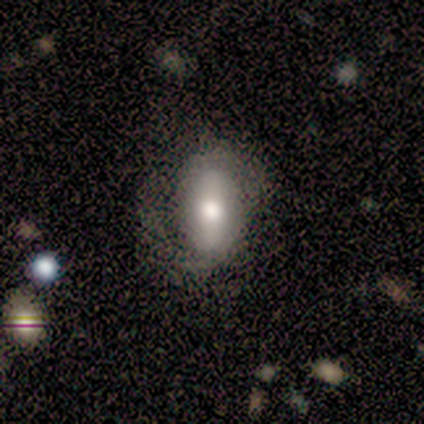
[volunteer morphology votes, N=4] A smooth galaxy with no disk features (50%, tied with featured or disk) that is in between round and cigar-shaped (100%).

Vote fractions:
- Smooth or featured? smooth: 50% (tied) / featured or disk: 50% (tied) / star or artifact: 0%
- How rounded? in between: 100% / round: 0% / cigar-shaped: 0%
- Merging? none: 75% / minor disturbance: 25% / major disturbance: 0% / merger: 0%